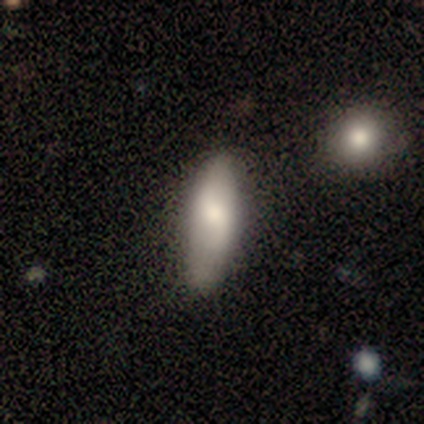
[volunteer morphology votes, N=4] Q: Smooth or featured?
A: featured or disk (100%)
Q: Edge-on disk?
A: no (100%)
Q: Bar?
A: no (75%); runner-up: weak (25%)
Q: Spiral arms?
A: yes (75%); runner-up: no (25%)
Q: Spiral winding?
A: loose (67%); runner-up: tight (33%)
Q: Spiral arm count?
A: 2 (67%); runner-up: can't tell (33%)
Q: Bulge size?
A: moderate (50%); runner-up: large (25%)
Q: Merging?
A: minor disturbance (50%); tied with: major disturbance (50%)